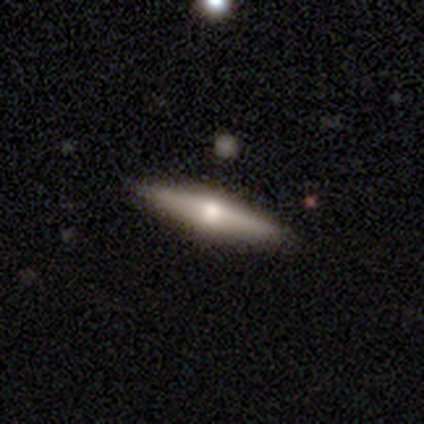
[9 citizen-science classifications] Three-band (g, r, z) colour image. It shows a featured or disk galaxy (67%) viewed edge-on (83%) with a rounded central bulge (100%). Merging: none (78%).